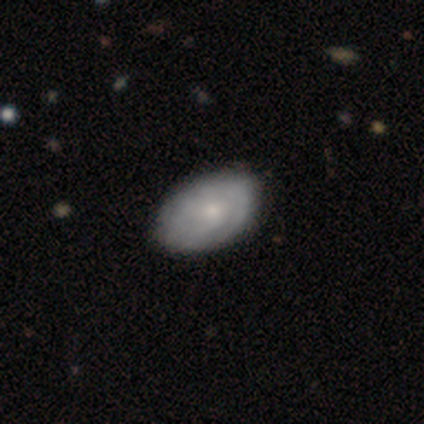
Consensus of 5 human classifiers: Overall: smooth (60%; featured or disk 40%). How rounded: in between (100%). Merging: none (60%; minor disturbance 40%).